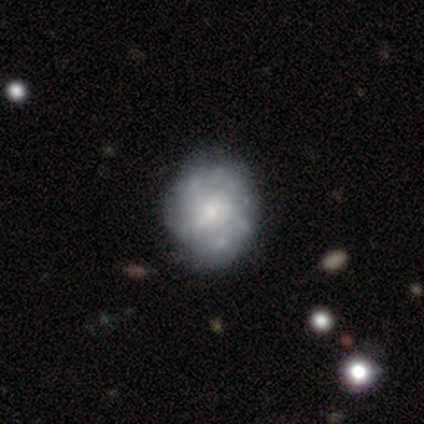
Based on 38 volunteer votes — A featured or disk galaxy (61%) with no bar (59%), more than 4 (44%) tight (56%) spiral arms (73%) and a small central bulge (50%). Merging: none (56%).